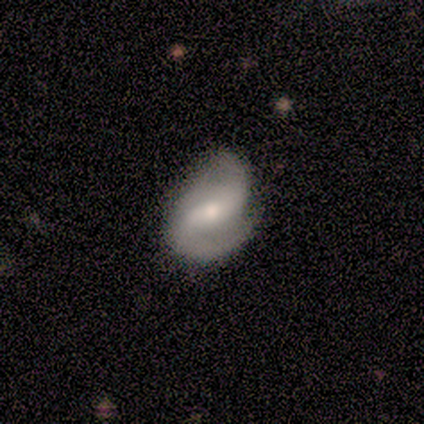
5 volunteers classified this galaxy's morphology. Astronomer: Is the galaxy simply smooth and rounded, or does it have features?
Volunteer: featured or disk — 100%.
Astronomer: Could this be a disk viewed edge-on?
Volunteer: no — 100%.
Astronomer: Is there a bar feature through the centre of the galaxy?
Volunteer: strong — 40%, tied with weak at 40%.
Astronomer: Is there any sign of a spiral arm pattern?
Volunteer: yes — 100%.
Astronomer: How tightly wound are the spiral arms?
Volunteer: loose — 80%.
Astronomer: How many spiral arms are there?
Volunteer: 2 — 80%.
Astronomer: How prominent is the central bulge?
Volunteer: moderate — 80%.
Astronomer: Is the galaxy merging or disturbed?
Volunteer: minor disturbance — 40%, tied with major disturbance at 40%.